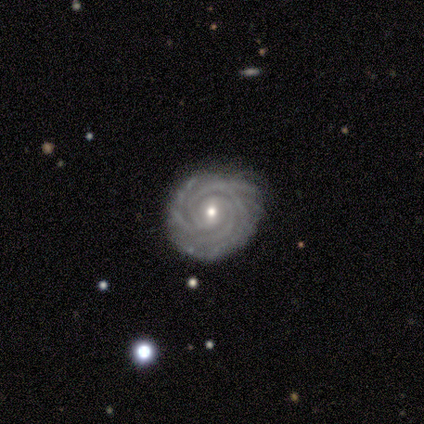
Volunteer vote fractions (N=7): Smooth or featured: featured or disk — 86% (star or artifact — 14%)
Edge-on disk: no — 100%
Bar: weak — 67% (no — 33%)
Spiral arms: yes — 100%
Spiral winding: tight — 83% (medium — 17%)
Spiral arm count: 4 — 50% (2 — 33%)
Bulge size: small — 67% (moderate — 33%)
Merging: none — 100%